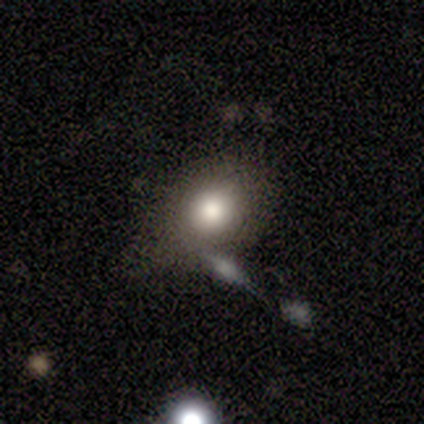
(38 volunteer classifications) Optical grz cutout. It shows a smooth galaxy with no disk features (84%) that is round (62%). Merging: none (43%).